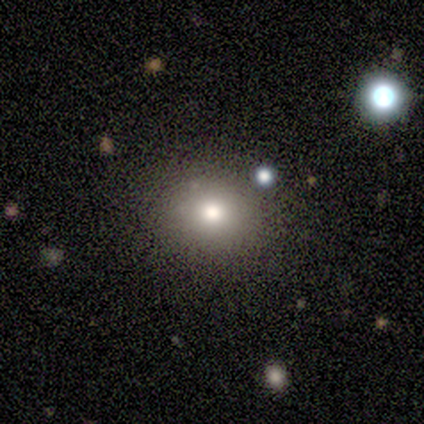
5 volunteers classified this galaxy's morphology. Smooth or featured?
  - smooth: 80% *
  - star or artifact: 20%
  - featured or disk: 0%
How rounded?
  - in between: 75% *
  - round: 25%
  - cigar-shaped: 0%
Merging?
  - none: 100% *
  - minor disturbance: 0%
  - major disturbance: 0%
  - merger: 0%